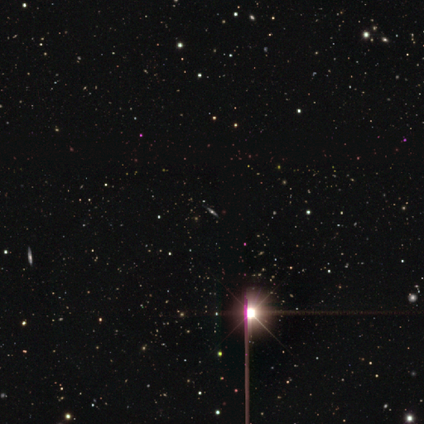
smooth_or_featured: featured or disk (p=0.50) [tied with: star or artifact p=0.50]
disk_edge_on: yes (p=1.00)
edge_on_bulge: rounded (p=1.00)
merging: none (p=1.00)